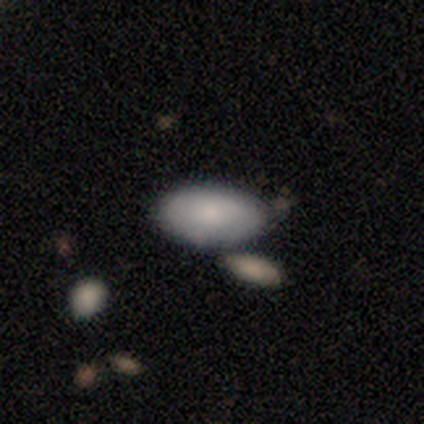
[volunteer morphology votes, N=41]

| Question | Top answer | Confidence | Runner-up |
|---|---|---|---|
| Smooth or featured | smooth | 76% | featured or disk (17%) |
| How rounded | in between | 94% | round (3%) |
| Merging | none | 66% | merger (18%) |